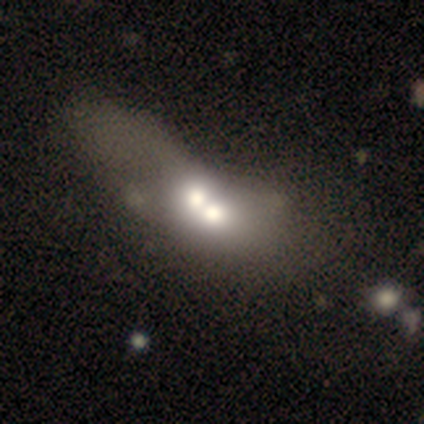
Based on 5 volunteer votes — This appears to be a featured or disk galaxy (80%) with no bar (100%), no spiral arms (100%) and a moderate central bulge (50%). Merging: merger (80%).